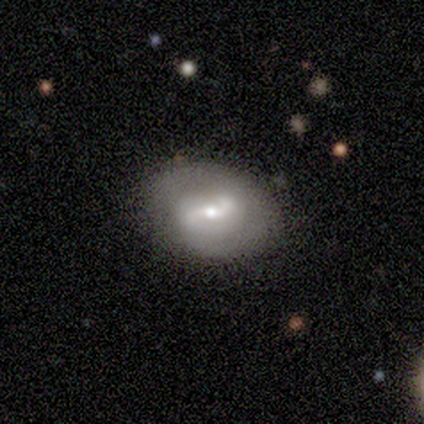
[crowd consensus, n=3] Morphology: type=featured or disk (67%); edge-on=no (100%); bar=weak (50%, tied with no); spiral arms=yes (100%); winding=medium (50%, tied with loose); arm count=2 (100%); bulge=moderate (50%, tied with small); merging=none (67%).